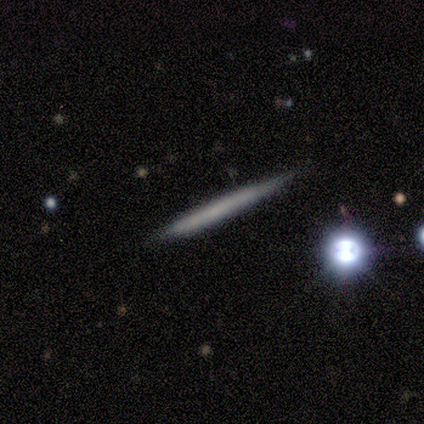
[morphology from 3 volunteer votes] smooth-or-featured: featured or disk: 67% | smooth: 33% | star or artifact: 0%
  disk-edge-on: yes: 100% | no: 0%
    edge-on-bulge: none: 100% | boxy: 0% | rounded: 0%
  merging: none: 67% | minor disturbance: 33% | major disturbance: 0% | merger: 0%